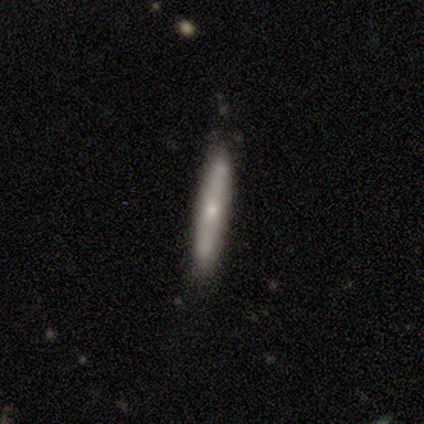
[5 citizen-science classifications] smooth-or-featured: featured or disk: 80% | smooth: 20% | star or artifact: 0%
  disk-edge-on: yes: 100% | no: 0%
    edge-on-bulge: rounded: 75% | none: 25% | boxy: 0%
  merging: none: 80% | minor disturbance: 20% | major disturbance: 0% | merger: 0%